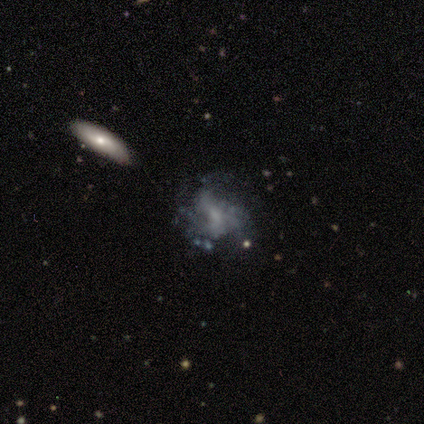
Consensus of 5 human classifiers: featured or disk 80%, smooth 20%, star or artifact 0%. Down the decision tree: edge-on disk — no (100%); bar — no (100%); spiral arms — yes (75%); spiral arm count — 3 (100%); spiral winding — medium (67%); bulge size — moderate (50%); merging — none (40%).